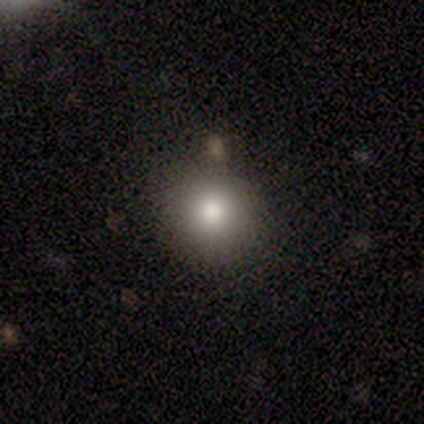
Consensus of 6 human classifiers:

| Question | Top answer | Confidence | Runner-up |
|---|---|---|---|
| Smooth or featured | smooth | 67% | featured or disk (33%) |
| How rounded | round | 100% | — |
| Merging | none | 67% | minor disturbance (17%) |